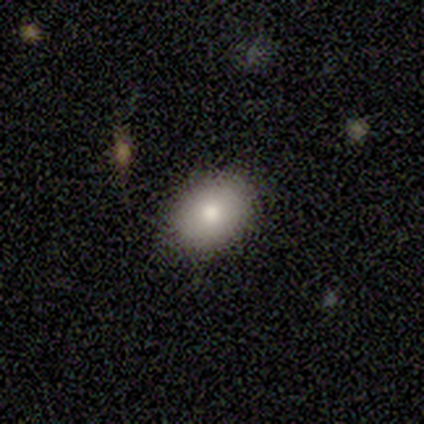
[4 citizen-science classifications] Smooth or featured: smooth — 100%
How rounded: in between — 75% (round — 25%)
Merging: none — 100%